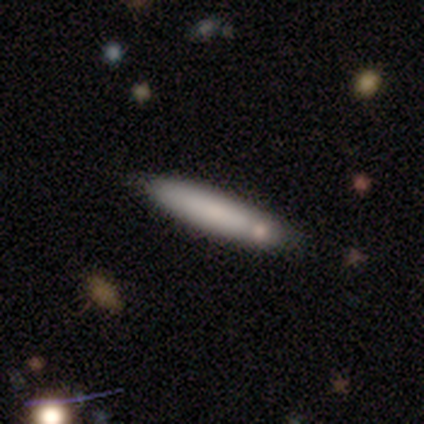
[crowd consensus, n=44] smooth 86%, featured or disk 9%, star or artifact 5%. Down the decision tree: how rounded — cigar-shaped (89%); merging — none (86%).